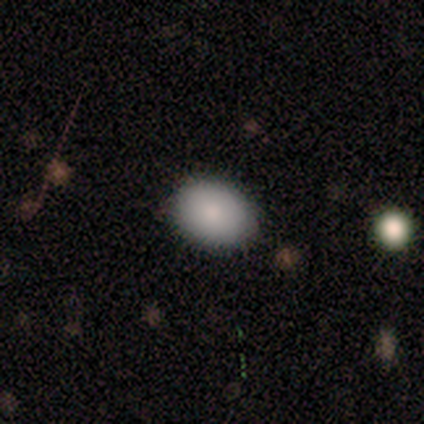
A smooth galaxy with no disk features (80%) that is in between round and cigar-shaped (75%).

Vote fractions:
- Smooth or featured? smooth: 80% / star or artifact: 20% / featured or disk: 0%
- How rounded? in between: 75% / round: 25% / cigar-shaped: 0%
- Merging? none: 75% / minor disturbance: 25% / major disturbance: 0% / merger: 0%